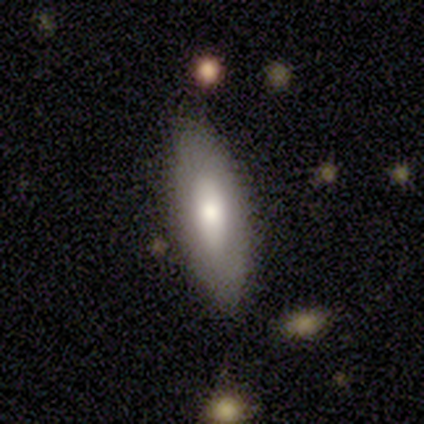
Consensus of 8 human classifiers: This is likely a smooth galaxy (75%). How rounded: likely in between (67%). Merging: clearly none (88%).